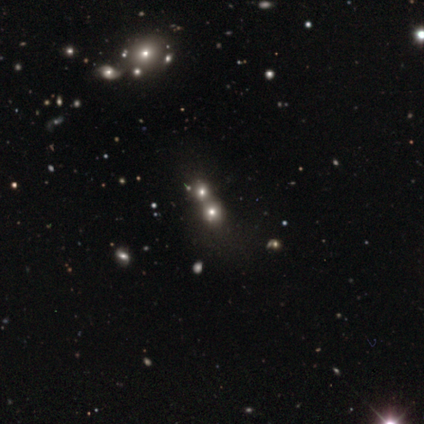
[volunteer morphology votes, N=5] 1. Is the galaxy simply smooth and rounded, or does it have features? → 80% smooth, 20% star or artifact, 0% featured or disk.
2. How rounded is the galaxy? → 75% round, 25% in between, 0% cigar-shaped.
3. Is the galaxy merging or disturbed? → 75% merger, 25% none, 0% minor disturbance, 0% major disturbance.